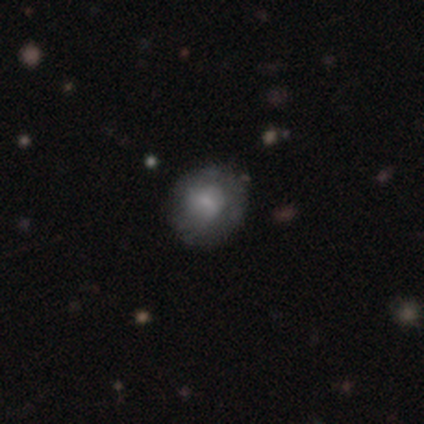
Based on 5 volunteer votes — Morphology: type=featured or disk (60%); edge-on=no (100%); bar=no (67%); spiral arms=no (67%); bulge=small (100%); merging=none (75%).